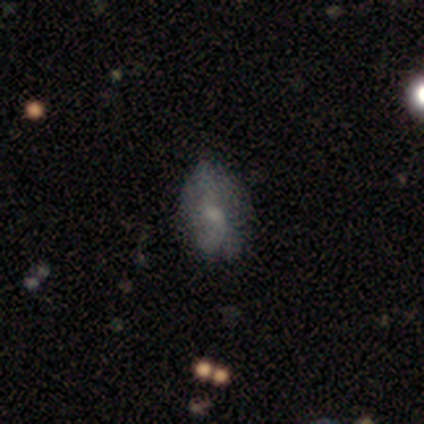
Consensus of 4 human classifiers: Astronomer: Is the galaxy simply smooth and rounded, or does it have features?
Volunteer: smooth — 50%.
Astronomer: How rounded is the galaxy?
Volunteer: round — 50%, tied with in between at 50%.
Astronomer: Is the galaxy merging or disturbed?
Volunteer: none — 67%.